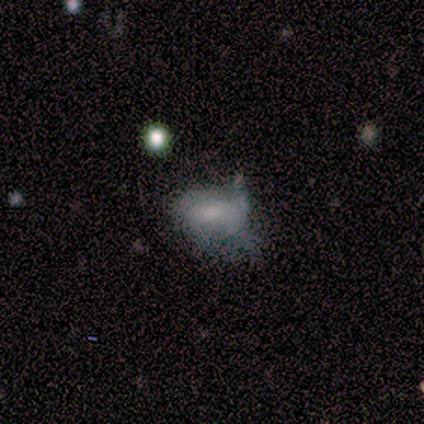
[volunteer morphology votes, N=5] smooth-or-featured: smooth: 40% (tied) | featured or disk: 40% (tied) | star or artifact: 20%
  how-rounded: in between: 100% | round: 0% | cigar-shaped: 0%
  merging: minor disturbance: 75% | none: 25% | major disturbance: 0% | merger: 0%